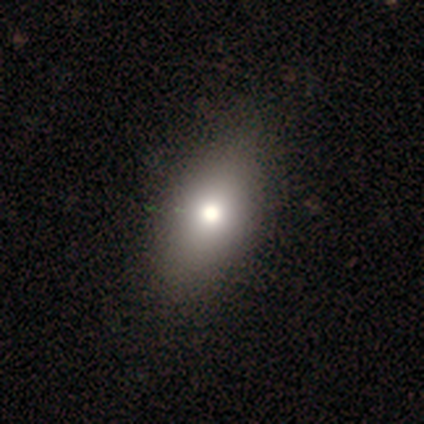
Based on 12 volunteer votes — Smooth or featured?
  - smooth: 92% *
  - featured or disk: 8%
  - star or artifact: 0%
How rounded?
  - in between: 91% *
  - round: 9%
  - cigar-shaped: 0%
Merging?
  - none: 83% *
  - minor disturbance: 17%
  - major disturbance: 0%
  - merger: 0%